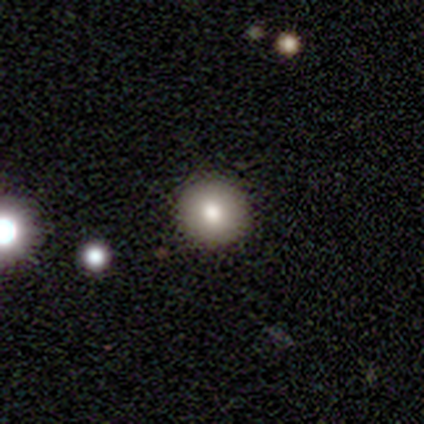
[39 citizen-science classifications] Smooth or featured?
  - smooth: 74% *
  - featured or disk: 13%
  - star or artifact: 13%
How rounded?
  - round: 100% *
  - in between: 0%
  - cigar-shaped: 0%
Merging?
  - none: 100% *
  - minor disturbance: 0%
  - major disturbance: 0%
  - merger: 0%